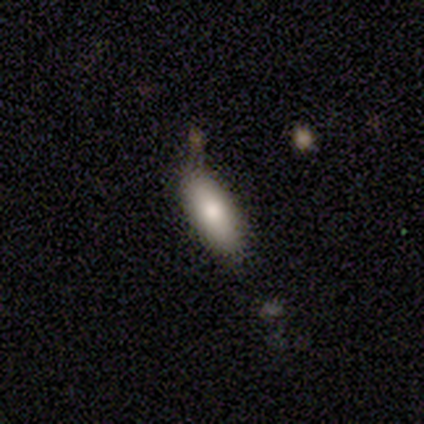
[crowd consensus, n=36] Overall: smooth (78%). How rounded: in between (75%). Merging: none (82%).